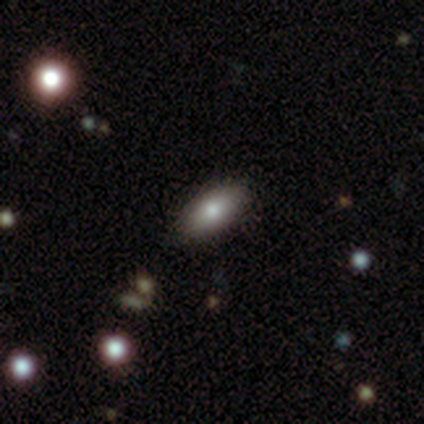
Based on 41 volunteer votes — This appears to be a smooth galaxy with no disk features (76%) that is in between round and cigar-shaped (97%). Merging: none (92%).